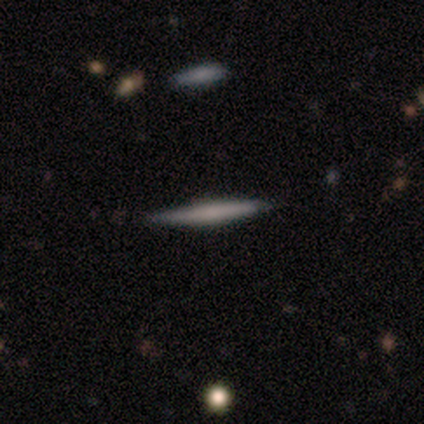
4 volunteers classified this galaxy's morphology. Q: Smooth or featured?
A: smooth (75%); runner-up: featured or disk (25%)
Q: How rounded?
A: cigar-shaped (100%)
Q: Merging?
A: none (100%)